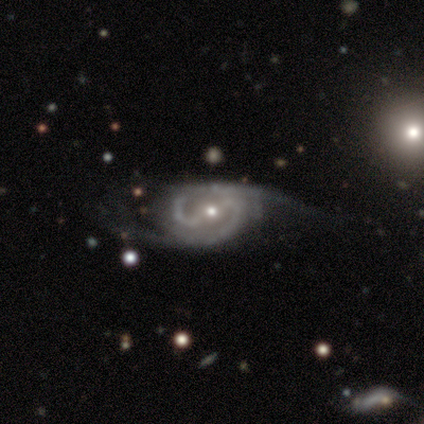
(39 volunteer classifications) A featured or disk galaxy (92%) with a strong bar (63%), 2 (84%) medium (65%) spiral arms (89%) and a moderate central bulge (54%).

Vote fractions:
- Smooth or featured? featured or disk: 92% / smooth: 5% / star or artifact: 3%
- Edge-on disk? no: 97% / yes: 3%
- Bar? strong: 63% / weak: 34% / no: 3%
- Spiral arms? yes: 89% / no: 11%
- Spiral winding? medium: 65% / tight: 23% / loose: 13%
- Spiral arm count? 2: 84% / 3: 6% / 4: 6% / can't tell: 3% / 1: 0% / more than 4: 0%
- Bulge size? moderate: 54% / small: 37% / none: 6% / large: 3% / dominant: 0%
- Merging? none: 58% / minor disturbance: 24% / major disturbance: 16% / merger: 3%